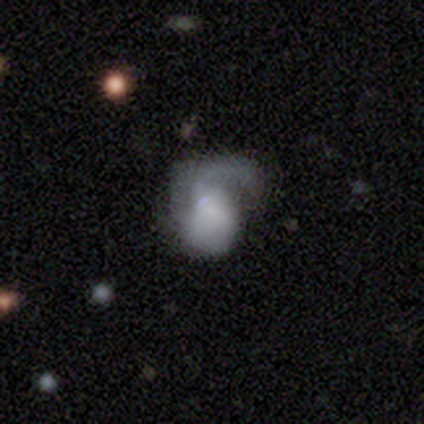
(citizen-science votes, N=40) A featured or disk galaxy (57%) with no bar (78%), 1 (72%) tight (39%, tied with medium) spiral arms (78%) and no central bulge (57%). Merging: major disturbance (39%).